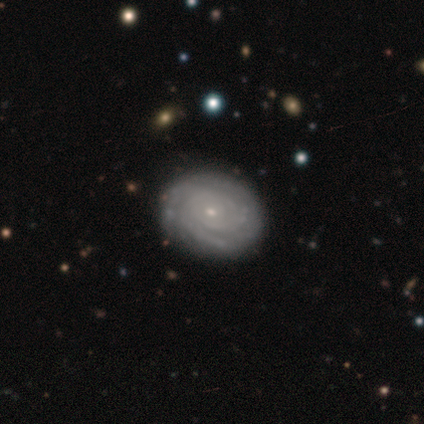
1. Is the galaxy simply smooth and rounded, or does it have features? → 96% featured or disk, 3% star or artifact, 1% smooth.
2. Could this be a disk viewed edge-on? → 97% no, 3% yes.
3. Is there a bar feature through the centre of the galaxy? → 83% no, 14% weak, 3% strong.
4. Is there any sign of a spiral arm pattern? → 96% yes, 4% no.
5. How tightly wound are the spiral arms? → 91% tight, 9% medium, 0% loose.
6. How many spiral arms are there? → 45% can't tell, 26% 3, 12% 2, 10% more than 4, 7% 4, 0% 1.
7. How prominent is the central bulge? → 86% small, 14% moderate, 0% dominant, 0% large, 0% none.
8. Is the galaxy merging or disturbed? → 52% none, 5% minor disturbance, 0% major disturbance, 0% merger.